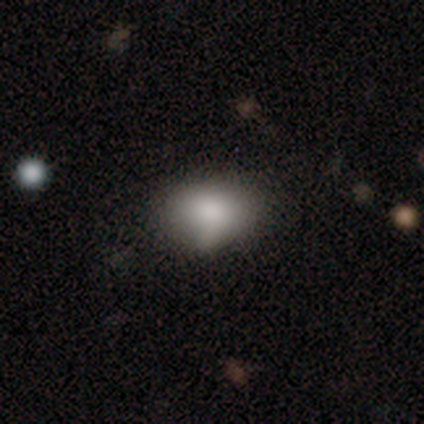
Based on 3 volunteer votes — Overall: smooth (100%). How rounded: round (67%; in between 33%). Merging: none (67%; major disturbance 33%).